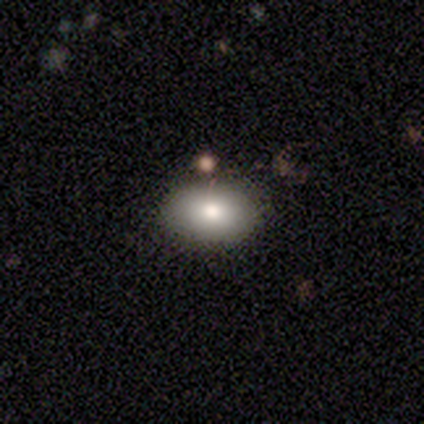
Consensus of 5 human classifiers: Volunteers were most divided on "merging" (2-way tie): none: 40%, merger: 40%, major disturbance: 20%, minor disturbance: 0%. More confident: smooth or featured — smooth (100%); how rounded — in between (100%).